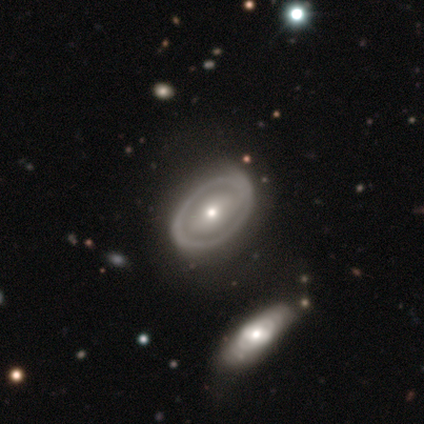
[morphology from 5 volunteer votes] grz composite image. It shows a featured or disk galaxy (80%) with a weak bar (50%, tied with no), no spiral arms (100%) and a moderate central bulge (50%). Merging: none (60%).